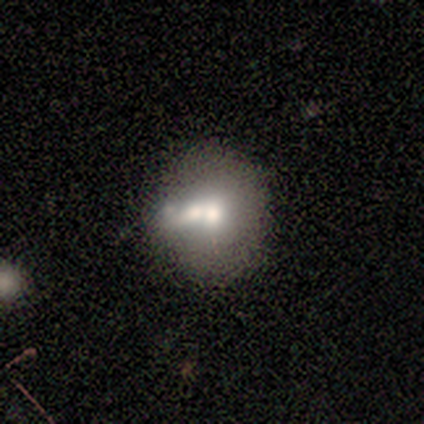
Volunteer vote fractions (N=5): Morphology: type=smooth (80%); roundness=round (100%); merging=none (40%, tied with merger).